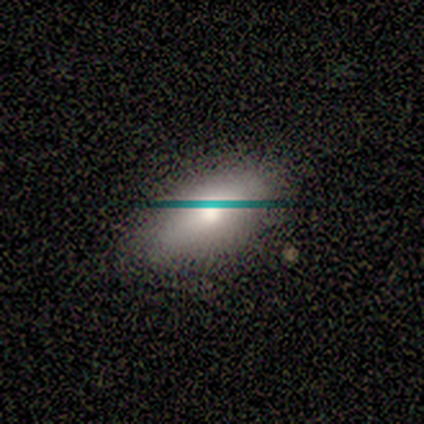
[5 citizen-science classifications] Smooth or featured? 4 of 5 (80%) said smooth. How rounded? 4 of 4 (100%) said in between. Merging? 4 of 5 (80%) said none.